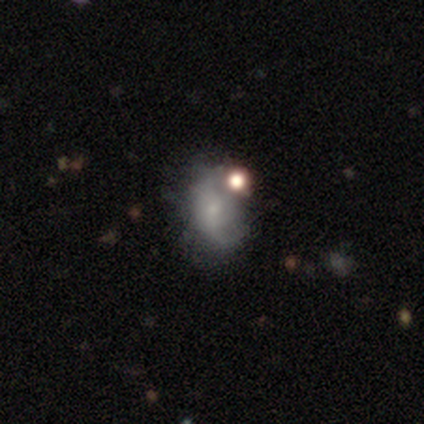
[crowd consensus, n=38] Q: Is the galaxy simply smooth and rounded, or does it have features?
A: smooth — 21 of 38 (55%).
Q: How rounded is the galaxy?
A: in between — 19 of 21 (90%).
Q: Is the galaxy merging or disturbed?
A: none — 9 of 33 (27%).